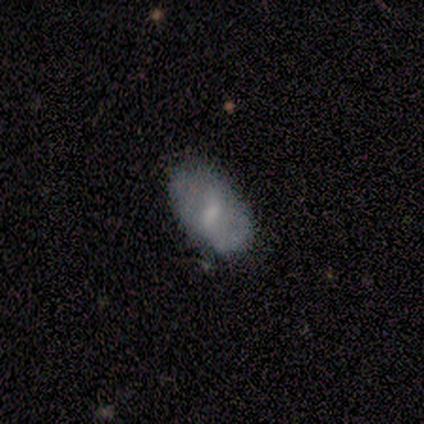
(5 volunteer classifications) Smooth or featured?
  - smooth: 80% *
  - featured or disk: 20%
  - star or artifact: 0%
How rounded?
  - in between: 100% *
  - round: 0%
  - cigar-shaped: 0%
Merging?
  - none: 100% *
  - minor disturbance: 0%
  - major disturbance: 0%
  - merger: 0%